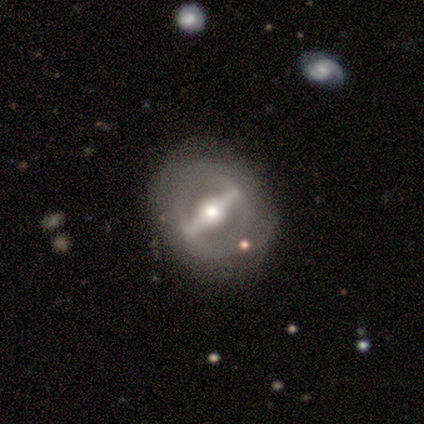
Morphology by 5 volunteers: This is likely a featured or disk galaxy (60%). It is clearly not viewed edge-on (100%). Bar: clearly strong (100%). Spiral arm pattern: likely no (67%). Central bulge: likely moderate (67%). Merging: clearly none (100%).